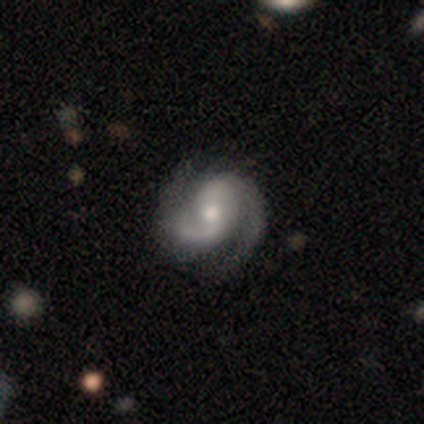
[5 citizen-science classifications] A featured or disk galaxy (100%) with no bar (75%), 2 (50%) loose (50%) spiral arms (100%) and a moderate central bulge (100%).

Vote fractions:
- Smooth or featured? featured or disk: 100% / smooth: 0% / star or artifact: 0%
- Edge-on disk? no: 80% / yes: 20%
- Bar? no: 75% / weak: 25% / strong: 0%
- Spiral arms? yes: 100% / no: 0%
- Spiral winding? loose: 50% / tight: 25% / medium: 25%
- Spiral arm count? 2: 50% / 3: 25% / can't tell: 25% / 1: 0% / 4: 0% / more than 4: 0%
- Bulge size? moderate: 100% / dominant: 0% / large: 0% / small: 0% / none: 0%
- Merging? none: 80% / minor disturbance: 20% / major disturbance: 0% / merger: 0%